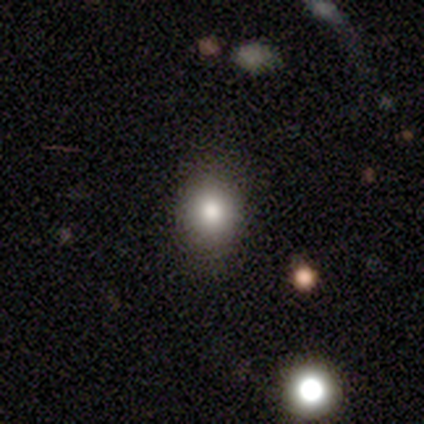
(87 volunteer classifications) Volunteers were most divided on "how rounded": round: 77%, in between: 23%, cigar-shaped: 0%. More confident: merging — none (86%); smooth or featured — smooth (79%).